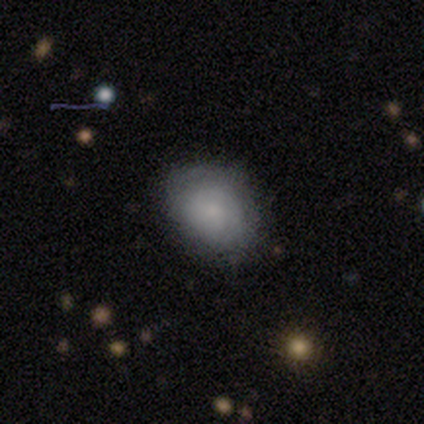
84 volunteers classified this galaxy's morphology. Smooth or featured: smooth — 69% (featured or disk — 17%)
How rounded: in between — 62% (round — 38%)
Merging: none — 75% (minor disturbance — 17%)